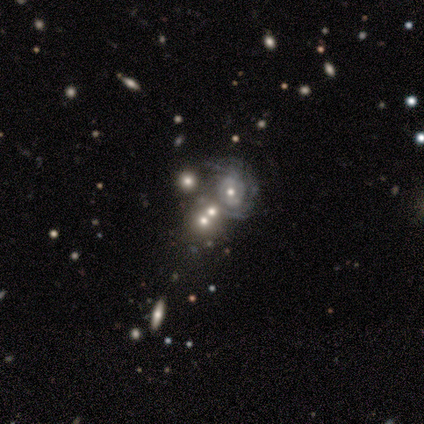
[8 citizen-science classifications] Volunteers were most divided on "bulge size" (2-way tie): moderate: 33%, small: 33%, large: 17%, none: 17%, dominant: 0%. More confident: edge-on disk — no (100%); bar — no (100%); smooth or featured — featured or disk (75%); spiral winding — tight (75%); spiral arm count — can't tell (75%); spiral arms — yes (67%); merging — merger (50%).